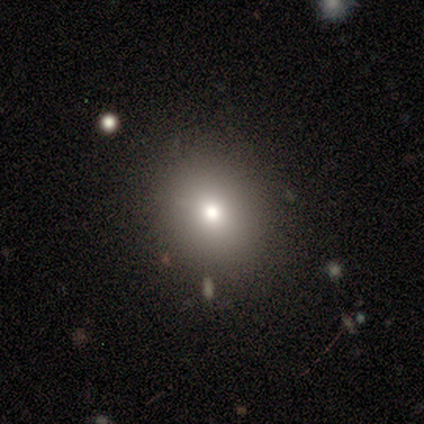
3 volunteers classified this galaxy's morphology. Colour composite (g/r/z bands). It shows a smooth galaxy with no disk features (67%) that is round (100%). Merging: minor disturbance (67%).